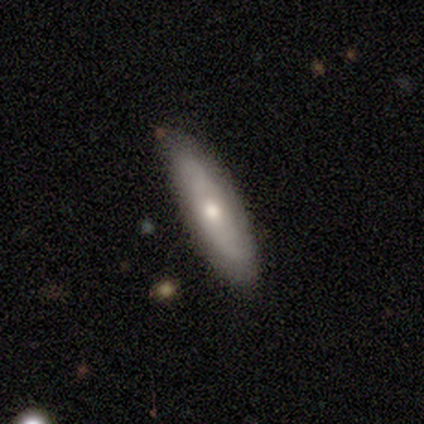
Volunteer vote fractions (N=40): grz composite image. It shows a featured or disk galaxy (57%) with no bar (93%), tight (55%) spiral arms (79%) and a moderate central bulge (86%). Merging: none (52%).